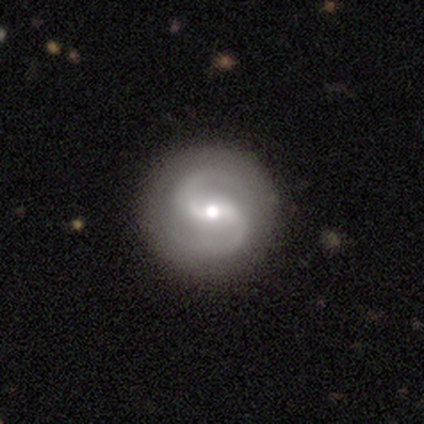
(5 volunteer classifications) smooth-or-featured: featured or disk: 80% | smooth: 20% | star or artifact: 0%
  disk-edge-on: no: 100% | yes: 0%
    bar: no: 50% | strong: 25% | weak: 25%
    has-spiral-arms: yes: 100% | no: 0%
      spiral-winding: tight: 50% | medium: 25% | loose: 25%
      spiral-arm-count: 2: 100% | 1: 0% | 3: 0% | 4: 0% | more than 4: 0% | can't tell: 0%
    bulge-size: moderate: 75% | small: 25% | dominant: 0% | large: 0% | none: 0%
  merging: none: 100% | minor disturbance: 0% | major disturbance: 0% | merger: 0%